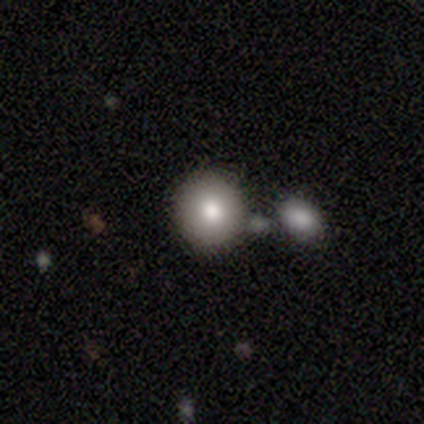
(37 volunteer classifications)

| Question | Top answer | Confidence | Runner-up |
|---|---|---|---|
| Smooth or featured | smooth | 62% | featured or disk (27%) |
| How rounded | round | 83% | in between (17%) |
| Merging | none | 52% | merger (27%) |